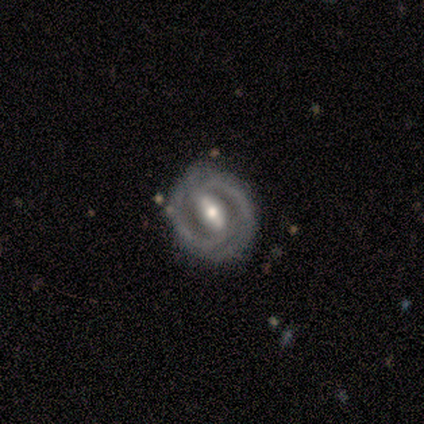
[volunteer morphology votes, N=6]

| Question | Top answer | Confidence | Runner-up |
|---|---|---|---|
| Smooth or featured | featured or disk | 100% | — |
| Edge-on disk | no | 100% | — |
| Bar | strong | 83% | weak (17%) |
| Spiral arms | yes | 100% | — |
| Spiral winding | tight | 67% | medium (33%) |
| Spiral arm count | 2 | 83% | can't tell (17%) |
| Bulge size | moderate | 83% | small (17%) |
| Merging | none | 100% | — |